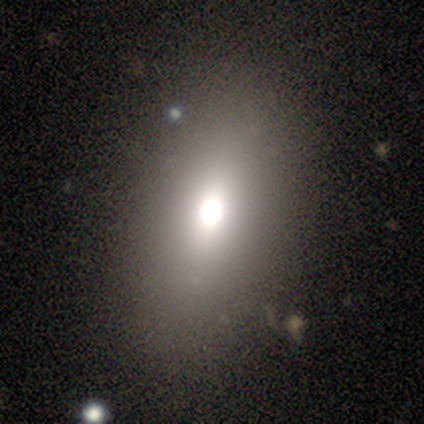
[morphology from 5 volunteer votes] A smooth galaxy with no disk features (60%) that is in between round and cigar-shaped (100%). Merging: none (100%).